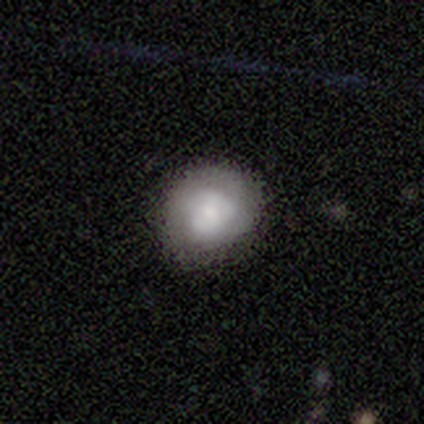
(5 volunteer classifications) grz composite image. It shows a smooth galaxy with no disk features (60%) that is round (100%). Merging: none (80%).